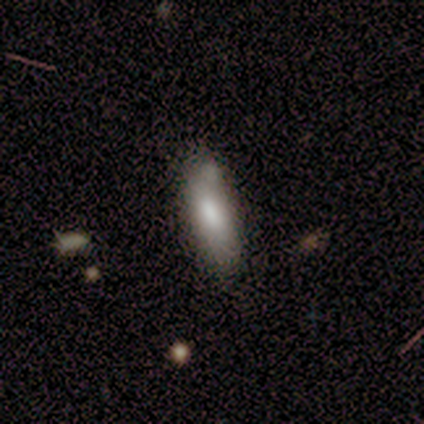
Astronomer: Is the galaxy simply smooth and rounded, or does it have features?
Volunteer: smooth — 60%.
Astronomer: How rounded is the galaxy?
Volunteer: in between — 67%.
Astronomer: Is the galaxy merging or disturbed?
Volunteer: none — 50%.